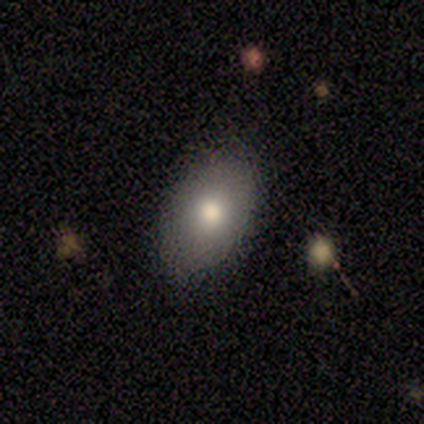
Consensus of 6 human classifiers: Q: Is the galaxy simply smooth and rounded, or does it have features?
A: smooth — 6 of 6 (100%).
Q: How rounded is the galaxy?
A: in between — 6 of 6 (100%).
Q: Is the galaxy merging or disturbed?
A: none — 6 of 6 (100%).